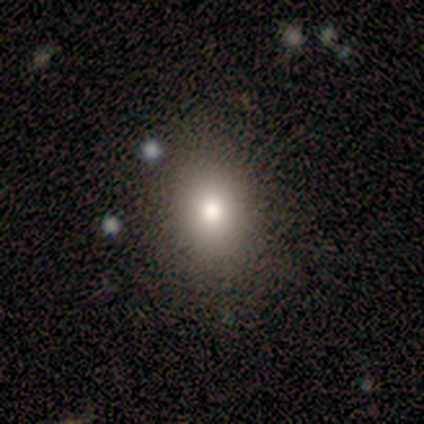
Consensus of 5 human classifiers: Smooth or featured? smooth (60%)
How rounded? round (67%)
Merging? none (60%)